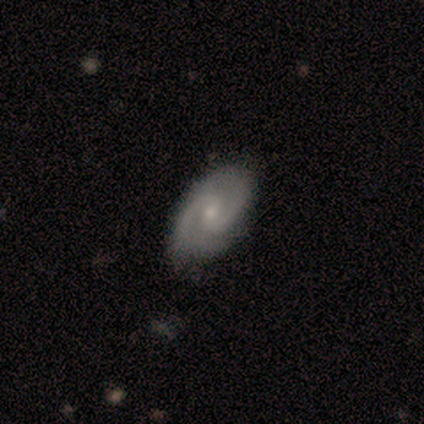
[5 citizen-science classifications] This is likely a featured or disk galaxy (60%). It is clearly not viewed edge-on (100%). Bar: likely weak (67%). Spiral arm pattern: clearly yes (100%). Spiral arm count: clearly 2 (100%). Spiral winding: marginally tight (33%, tied with medium and loose). Central bulge: clearly small (100%). Merging: clearly none (100%).